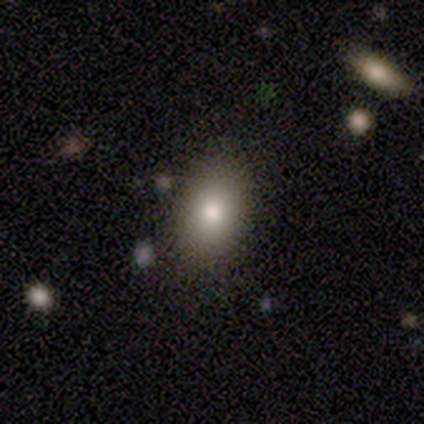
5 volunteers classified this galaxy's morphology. A smooth galaxy with no disk features (80%) that is round (50%, tied with in between). Merging: none (100%).